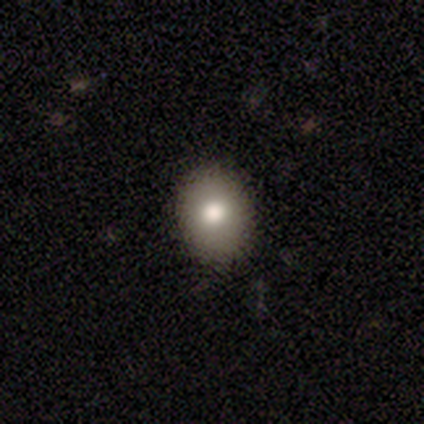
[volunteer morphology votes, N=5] A star or artifact, not a galaxy (60%).

Vote fractions:
- Smooth or featured? star or artifact: 60% / smooth: 40% / featured or disk: 0%